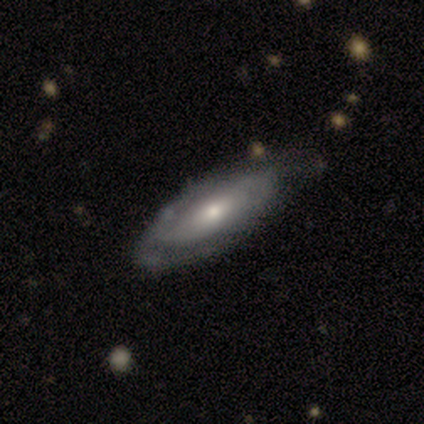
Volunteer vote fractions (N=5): smooth-or-featured: featured or disk: 40% (tied) | star or artifact: 40% (tied) | smooth: 20%
  disk-edge-on: yes: 50% (tied) | no: 50% (tied)
    edge-on-bulge: rounded: 100% | boxy: 0% | none: 0%
  merging: none: 100% | minor disturbance: 0% | major disturbance: 0% | merger: 0%